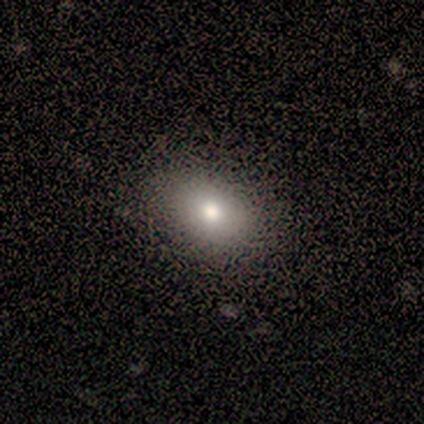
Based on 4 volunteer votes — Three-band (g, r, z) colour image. It shows a smooth galaxy with no disk features (100%) that is in between round and cigar-shaped (100%). Merging: none (100%).